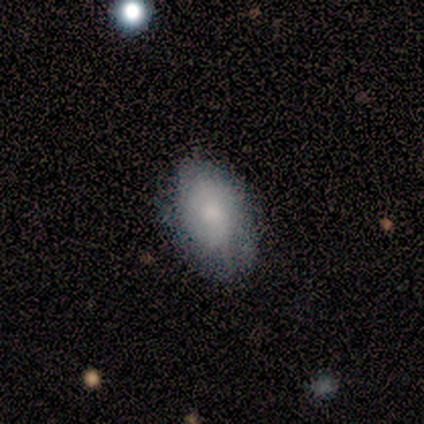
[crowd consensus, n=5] Volunteers were most divided on "bulge size" (3-way tie): large: 33%, moderate: 33%, small: 33%, dominant: 0%, none: 0%. More confident: edge-on disk — no (100%); spiral arms — yes (100%); spiral winding — tight (100%); bar — no (67%); spiral arm count — can't tell (67%); smooth or featured — featured or disk (60%); merging — minor disturbance (60%).